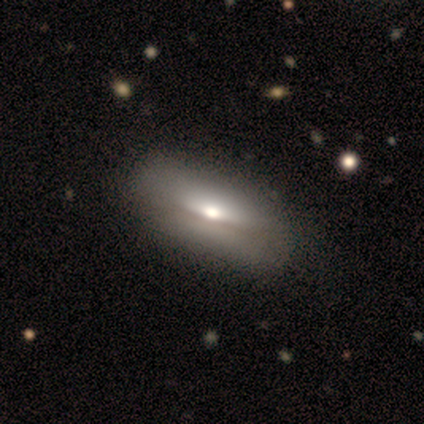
smooth-or-featured: smooth: 50% (tied) | featured or disk: 50% (tied) | star or artifact: 0%
  how-rounded: in between: 86% | round: 14% | cigar-shaped: 0%
  merging: none: 86% | minor disturbance: 14% | major disturbance: 0% | merger: 0%